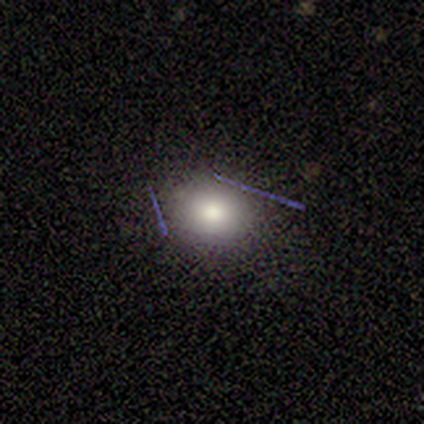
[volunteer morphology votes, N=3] smooth 67%, star or artifact 33%, featured or disk 0%. Down the decision tree: how rounded — round (100%); merging — none (100%).